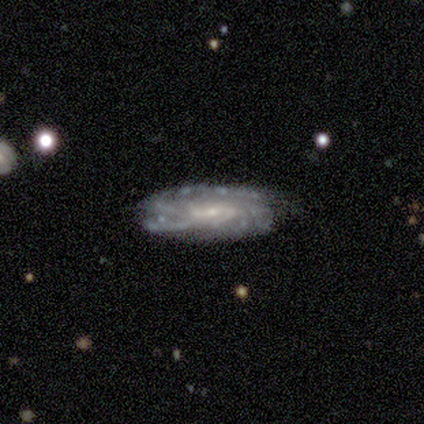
Smooth or featured: featured or disk — 100%
Edge-on disk: no — 100%
Bar: no — 60% (strong — 20%)
Spiral arms: yes — 100%
Spiral winding: tight — 80% (medium — 20%)
Spiral arm count: 3 — 60% (more than 4 — 20%)
Bulge size: small — 80% (moderate — 20%)
Merging: none — 80% (minor disturbance — 20%)